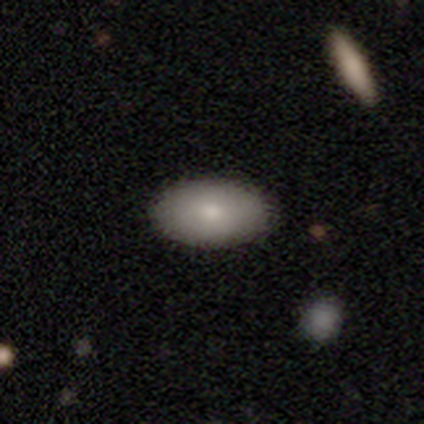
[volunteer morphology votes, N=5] type=smooth (100%); roundness=in between (100%); merging=none (100%).